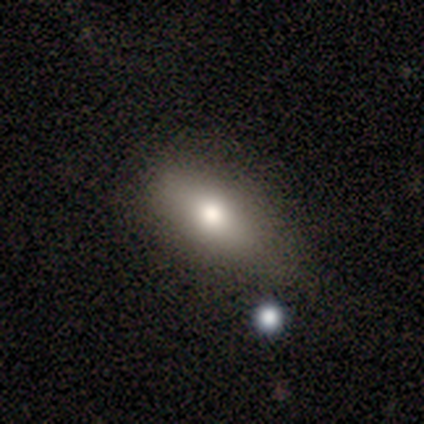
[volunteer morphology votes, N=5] Smooth or featured?
  - smooth: 60% *
  - featured or disk: 20%
  - star or artifact: 20%
How rounded?
  - in between: 100% *
  - round: 0%
  - cigar-shaped: 0%
Merging?
  - none: 75% *
  - minor disturbance: 25%
  - major disturbance: 0%
  - merger: 0%